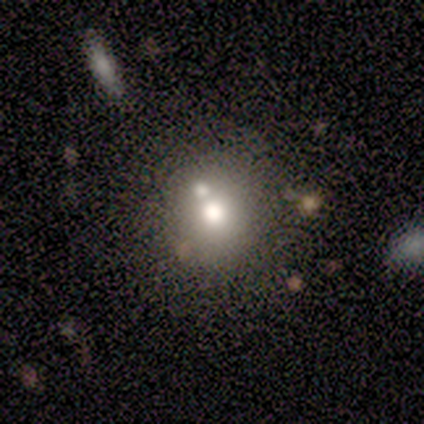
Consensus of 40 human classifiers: smooth_or_featured: smooth (p=0.70) [alt: featured or disk p=0.23]
how_rounded: round (p=0.96) [alt: in between p=0.04]
merging: none (p=0.62) [alt: merger p=0.27]